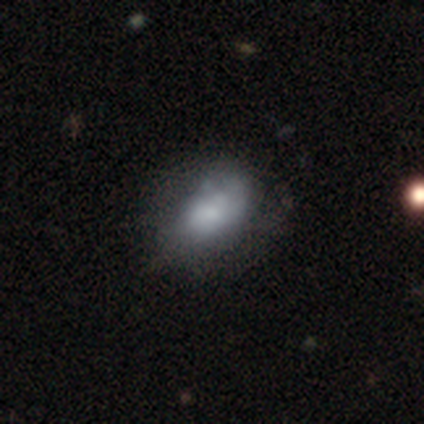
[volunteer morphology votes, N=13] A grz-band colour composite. It shows a smooth galaxy with no disk features (62%) that is in between round and cigar-shaped (75%). Merging: none (50%).